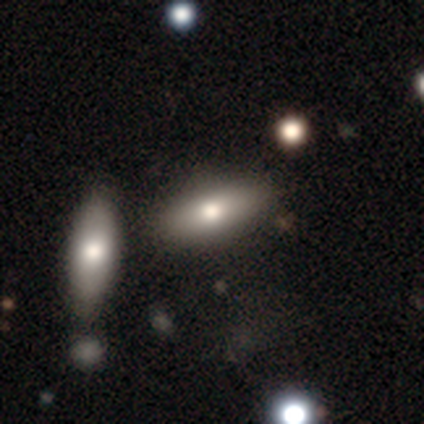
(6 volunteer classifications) Volunteers were most divided on "how rounded": in between: 60%, cigar-shaped: 40%, round: 0%. More confident: smooth or featured — smooth (83%); merging — none (50%).